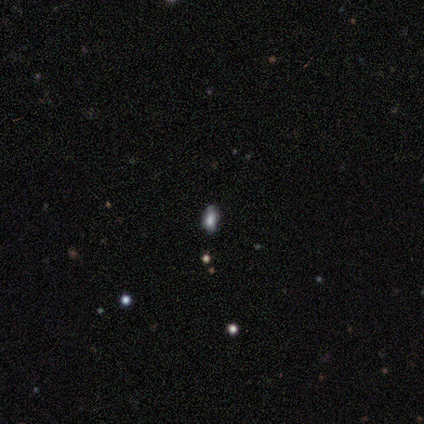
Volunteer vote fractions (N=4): This is likely a smooth galaxy (75%). How rounded: likely in between (67%). Merging: clearly none (100%).